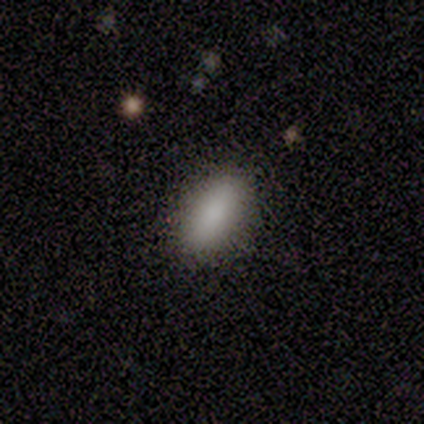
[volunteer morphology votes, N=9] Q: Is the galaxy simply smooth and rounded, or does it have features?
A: smooth — 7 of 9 (78%).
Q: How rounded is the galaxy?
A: in between — 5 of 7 (71%).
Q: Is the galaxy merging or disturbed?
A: none — 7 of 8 (88%).